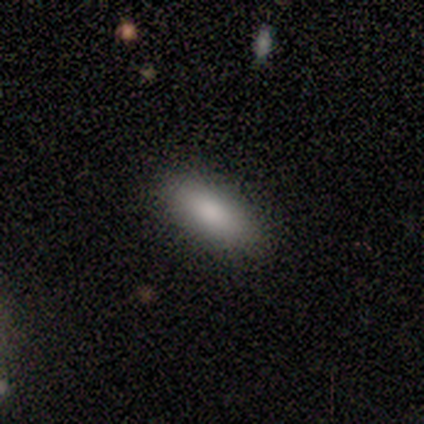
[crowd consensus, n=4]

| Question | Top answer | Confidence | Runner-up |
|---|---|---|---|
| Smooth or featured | smooth | 50% | tied: featured or disk (50%) |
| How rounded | in between | 100% | — |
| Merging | none | 100% | — |